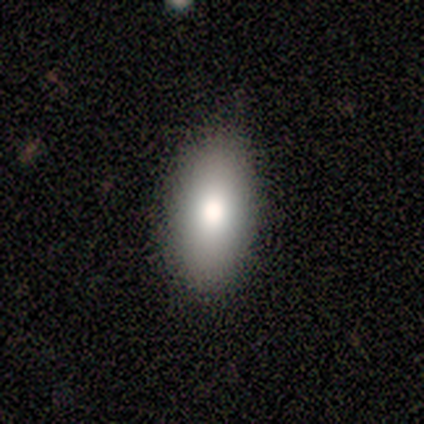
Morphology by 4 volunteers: smooth 75%, star or artifact 25%, featured or disk 0%. Down the decision tree: how rounded — in between (67%); merging — none (100%).